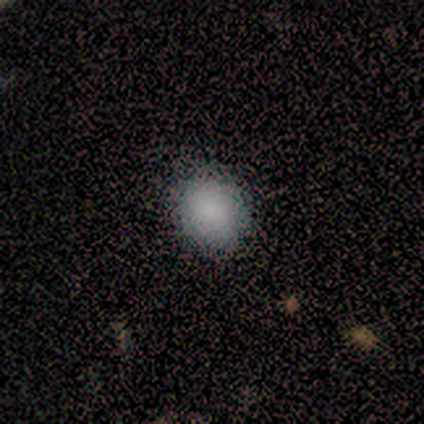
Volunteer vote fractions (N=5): Volunteers were most divided on "merging": none: 50%, minor disturbance: 25%, merger: 25%, major disturbance: 0%. More confident: how rounded — round (67%); smooth or featured — smooth (60%).